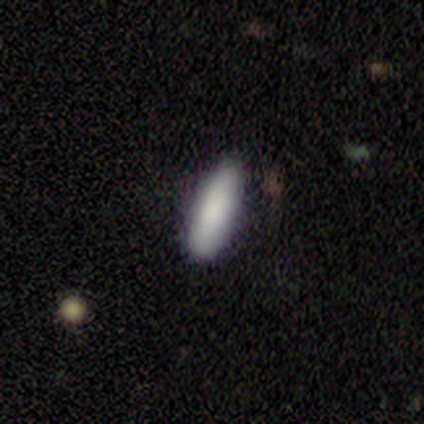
Smooth or featured? 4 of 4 (100%) said smooth. How rounded? 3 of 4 (75%) said cigar-shaped. Merging? 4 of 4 (100%) said none.